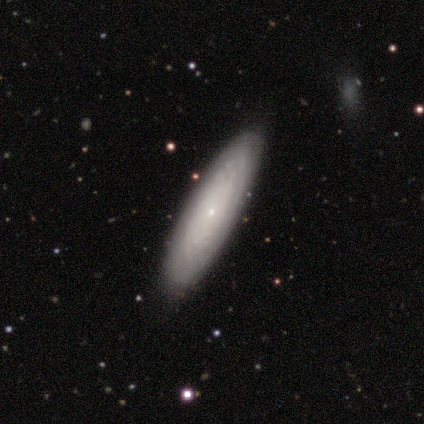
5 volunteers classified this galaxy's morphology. This appears to be a featured or disk galaxy (60%) viewed edge-on (67%) with no central bulge (100%). Merging: none (80%).